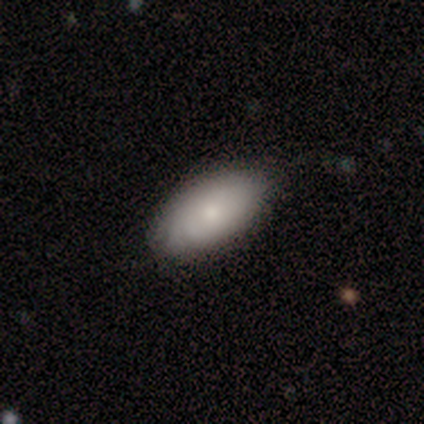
smooth_or_featured: smooth (p=0.69) [alt: featured or disk p=0.23]
how_rounded: in between (p=0.93) [alt: round p=0.07]
merging: none (p=0.83) [alt: minor disturbance p=0.17]